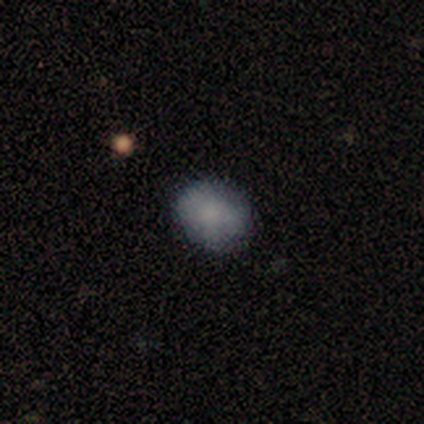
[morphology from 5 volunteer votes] Smooth or featured? smooth (80%)
How rounded? round (75%)
Merging? none (60%)